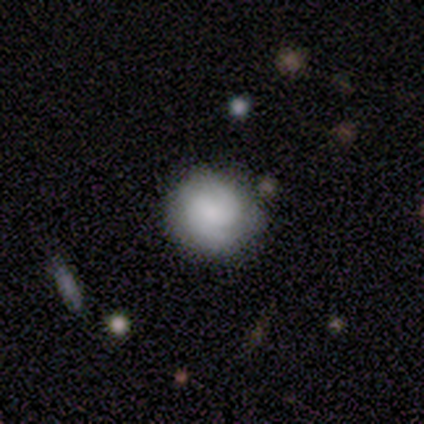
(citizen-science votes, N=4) This is possibly a smooth galaxy (50%, tied with featured or disk). How rounded: clearly round (100%). Merging: likely none (75%).